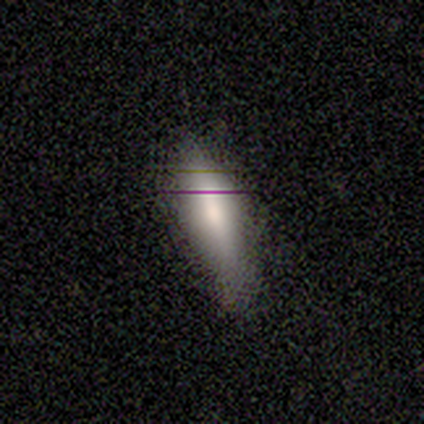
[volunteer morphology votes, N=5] smooth_or_featured: smooth (p=0.60) [alt: featured or disk p=0.20]
how_rounded: in between (p=0.67) [alt: cigar-shaped p=0.33]
merging: minor disturbance (p=0.75) [alt: none p=0.25]